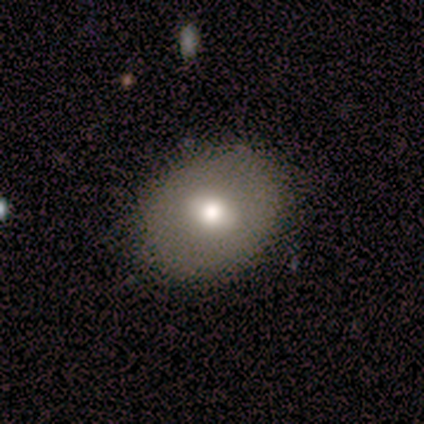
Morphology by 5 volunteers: Smooth or featured?
  - smooth: 60% *
  - featured or disk: 40%
  - star or artifact: 0%
How rounded?
  - round: 67% *
  - in between: 33%
  - cigar-shaped: 0%
Merging?
  - none: 100% *
  - minor disturbance: 0%
  - major disturbance: 0%
  - merger: 0%